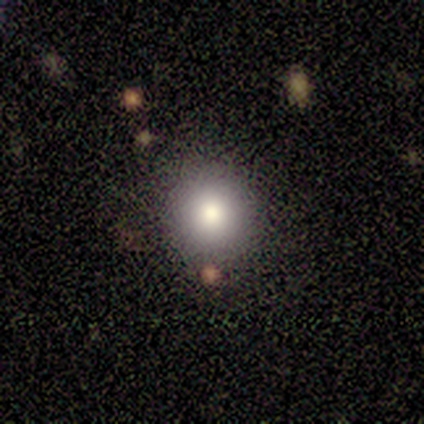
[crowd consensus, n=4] A smooth galaxy with no disk features (100%) that is round (100%).

Vote fractions:
- Smooth or featured? smooth: 100% / featured or disk: 0% / star or artifact: 0%
- How rounded? round: 100% / in between: 0% / cigar-shaped: 0%
- Merging? none: 100% / minor disturbance: 0% / major disturbance: 0% / merger: 0%